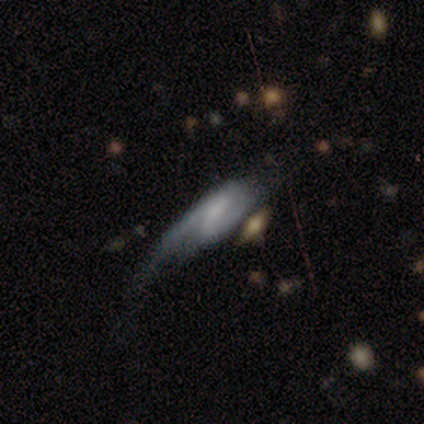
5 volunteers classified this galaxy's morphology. Smooth or featured? featured or disk (60%)
Edge-on disk? no (100%)
Bar? strong (33%, tied with weak and no)
Spiral arms? yes (67%)
Spiral winding? medium (50%, tied with loose)
Spiral arm count? 2 (100%)
Bulge size? none (67%)
Merging? minor disturbance (40%, tied with major disturbance)